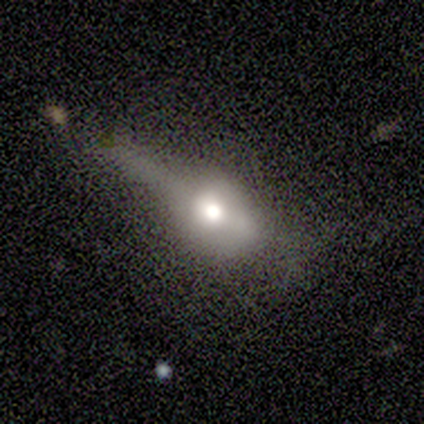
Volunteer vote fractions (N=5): This is marginally a featured or disk galaxy (40%, tied with star or artifact). It is possibly viewed edge-on (50%, tied with no). Edge-on bulge: clearly rounded (100%). Merging: marginally none (33%, tied with minor disturbance and major disturbance).